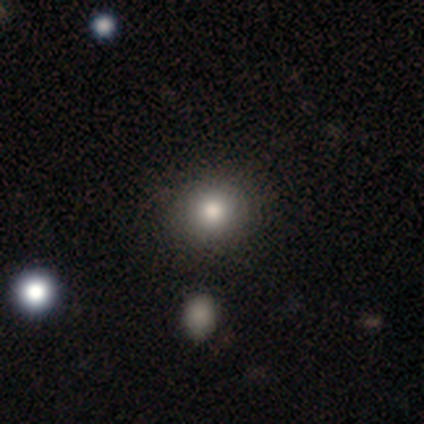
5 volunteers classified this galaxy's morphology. type=smooth (60%); roundness=round (100%); merging=none (100%).